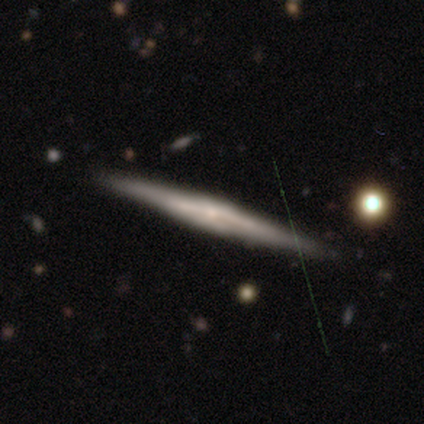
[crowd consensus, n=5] Q: Smooth or featured?
A: featured or disk (100%)
Q: Edge-on disk?
A: yes (100%)
Q: Edge-on bulge?
A: rounded (80%); runner-up: boxy (20%)
Q: Merging?
A: none (100%)